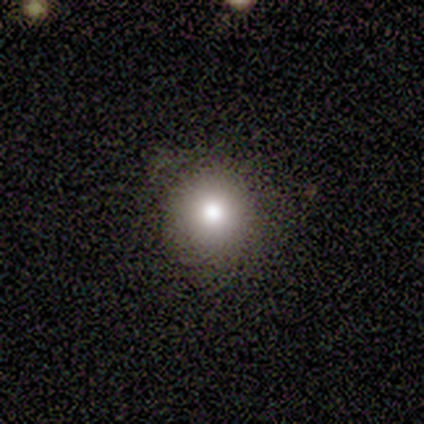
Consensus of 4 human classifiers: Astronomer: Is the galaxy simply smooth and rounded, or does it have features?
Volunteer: smooth — 75%.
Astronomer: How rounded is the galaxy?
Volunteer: round — 100%.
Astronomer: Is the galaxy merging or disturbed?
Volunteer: none — 100%.